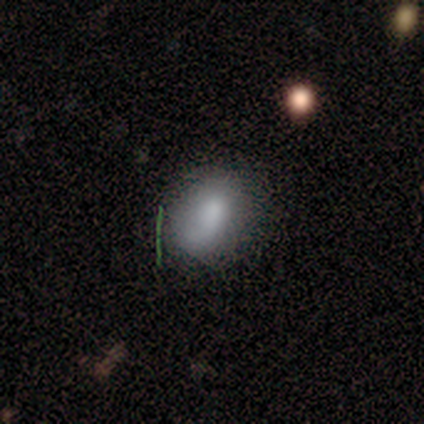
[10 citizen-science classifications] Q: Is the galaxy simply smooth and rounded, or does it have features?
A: smooth — 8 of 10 (80%).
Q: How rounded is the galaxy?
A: in between — 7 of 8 (88%).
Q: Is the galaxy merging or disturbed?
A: none — 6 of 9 (67%).